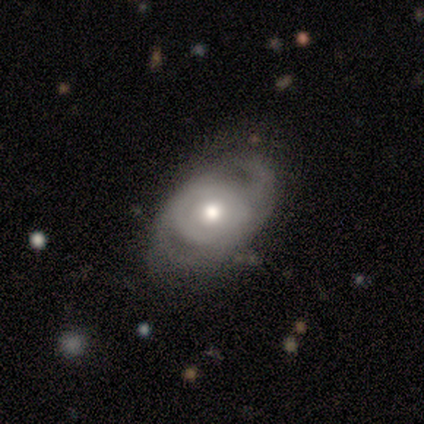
Volunteers were most divided on "spiral arm count": 2: 67%, 1: 33%, 3: 0%, 4: 0%, more than 4: 0%, can't tell: 0%. More confident: smooth or featured — featured or disk (100%); edge-on disk — no (100%); bar — no (100%); spiral winding — medium (100%); bulge size — moderate (100%); spiral arms — yes (75%); merging — minor disturbance (75%).